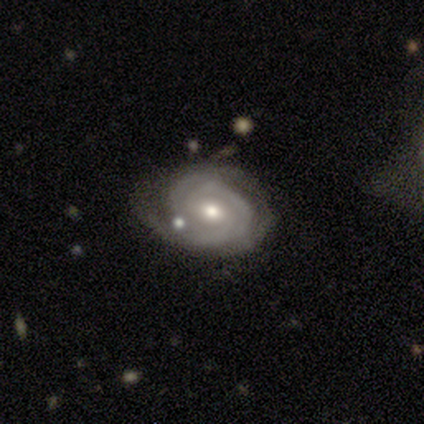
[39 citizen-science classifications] featured or disk 82%, smooth 13%, star or artifact 5%. Down the decision tree: edge-on disk — no (94%); bar — no (57%); spiral arms — yes (100%); spiral arm count — 3 (40%); spiral winding — tight (77%); bulge size — moderate (63%); merging — none (62%).